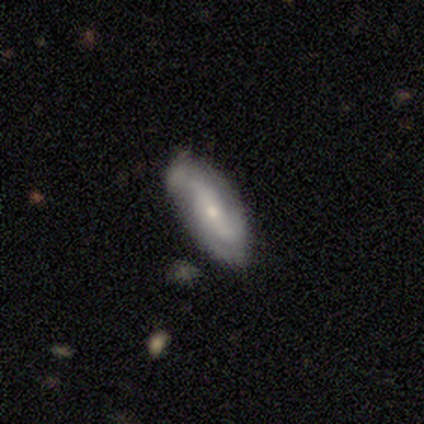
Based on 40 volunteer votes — featured or disk 82%, smooth 12%, star or artifact 5%. Down the decision tree: edge-on disk — no (97%); bar — weak (44%, tied with no); spiral arms — yes (91%); spiral arm count — 2 (59%); spiral winding — loose (55%); bulge size — small (84%); merging — none (61%).